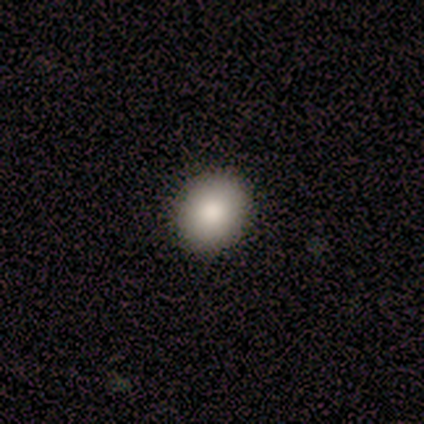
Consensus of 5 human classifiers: smooth-or-featured: smooth: 60% | star or artifact: 40% | featured or disk: 0%
  how-rounded: round: 67% | in between: 33% | cigar-shaped: 0%
  merging: none: 100% | minor disturbance: 0% | major disturbance: 0% | merger: 0%